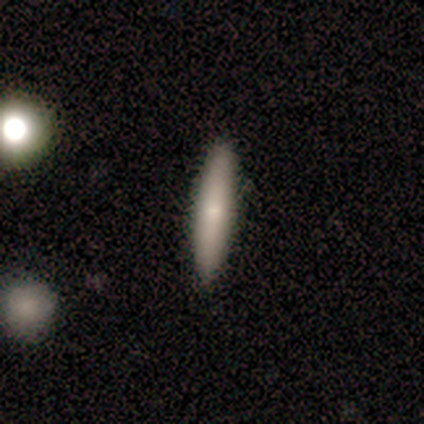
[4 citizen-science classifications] smooth_or_featured: featured or disk (p=0.75) [alt: star or artifact p=0.25]
disk_edge_on: yes (p=1.00)
edge_on_bulge: none (p=0.67) [alt: rounded p=0.33]
merging: none (p=1.00)